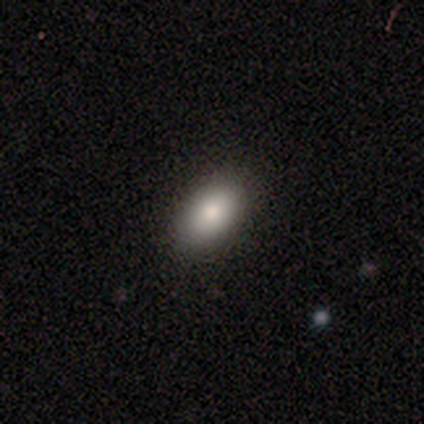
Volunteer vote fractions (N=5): smooth-or-featured: smooth: 100% | featured or disk: 0% | star or artifact: 0%
  how-rounded: in between: 60% | round: 20% | cigar-shaped: 20%
  merging: none: 100% | minor disturbance: 0% | major disturbance: 0% | merger: 0%